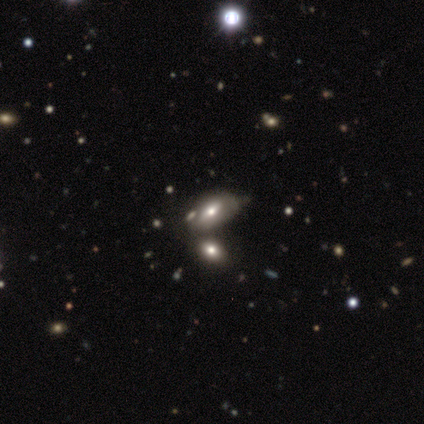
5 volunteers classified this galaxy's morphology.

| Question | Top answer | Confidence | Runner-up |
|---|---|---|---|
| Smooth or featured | featured or disk | 60% | smooth (20%) |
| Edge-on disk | no | 67% | yes (33%) |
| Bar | strong | 50% | tied: no (50%) |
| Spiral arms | yes | 50% | tied: no (50%) |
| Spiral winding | tight | 100% | — |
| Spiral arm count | can't tell | 100% | — |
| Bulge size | large | 50% | tied: moderate (50%) |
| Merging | merger | 75% | minor disturbance (25%) |